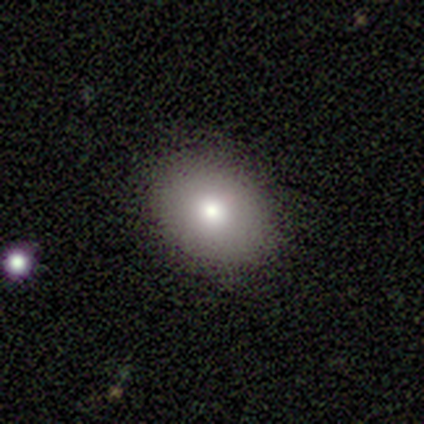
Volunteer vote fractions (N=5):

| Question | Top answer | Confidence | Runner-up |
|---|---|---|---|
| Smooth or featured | smooth | 80% | star or artifact (20%) |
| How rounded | round | 75% | in between (25%) |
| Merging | none | 100% | — |